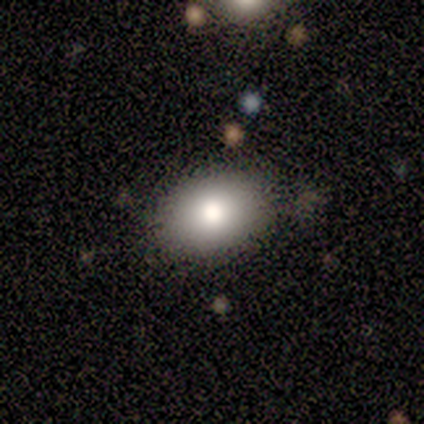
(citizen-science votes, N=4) This appears to be a smooth galaxy with no disk features (100%) that is in between round and cigar-shaped (75%). Merging: none (100%).